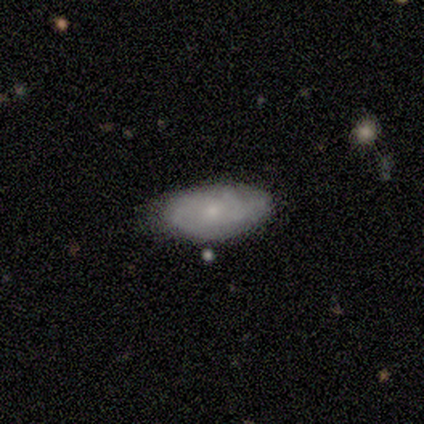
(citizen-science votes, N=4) A smooth galaxy with no disk features (50%, tied with featured or disk) that is in between round and cigar-shaped (100%). Merging: none (75%).